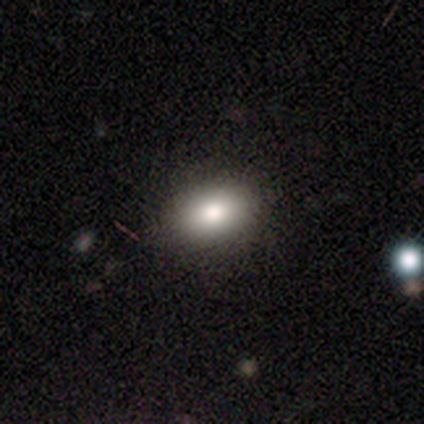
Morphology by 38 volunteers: A smooth galaxy with no disk features (82%) that is in between round and cigar-shaped (97%). Merging: none (94%).